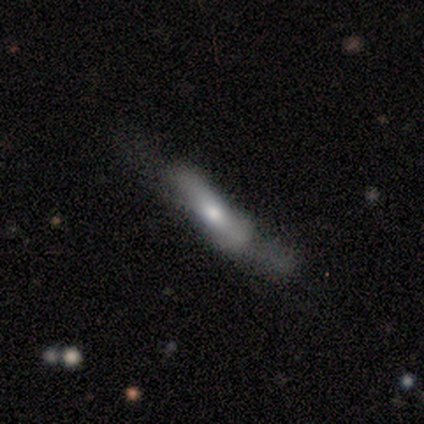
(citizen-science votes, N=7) Smooth or featured?
  - featured or disk: 71% *
  - smooth: 29%
  - star or artifact: 0%
Edge-on disk?
  - no: 60% *
  - yes: 40%
Bar?
  - strong: 67% *
  - no: 33%
  - weak: 0%
Spiral arms?
  - yes: 100% *
  - no: 0%
Spiral winding?
  - loose: 67% *
  - tight: 33%
  - medium: 0%
Spiral arm count?
  - 2: 67% *
  - can't tell: 33%
  - 1: 0%
  - 3: 0%
  - 4: 0%
  - more than 4: 0%
Bulge size?
  - dominant: 33% * (tied)
  - large: 33% * (tied)
  - moderate: 33% * (tied)
  - small: 0%
  - none: 0%
Merging?
  - none: 71% *
  - minor disturbance: 14%
  - major disturbance: 14%
  - merger: 0%